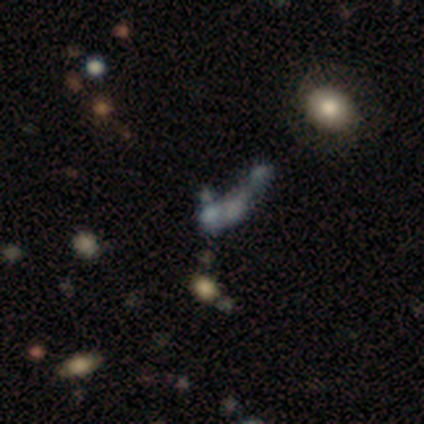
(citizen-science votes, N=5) This is likely a smooth galaxy (60%). How rounded: likely in between (67%). Merging: marginally none (40%, tied with major disturbance).